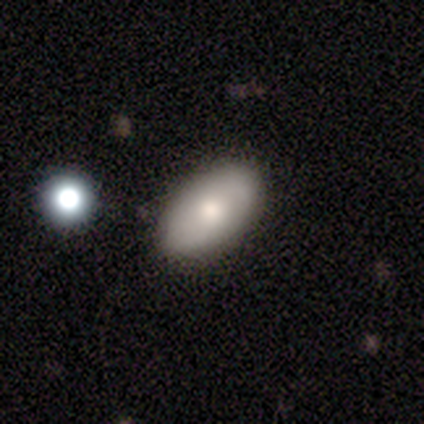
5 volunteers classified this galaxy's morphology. smooth 80%, featured or disk 20%, star or artifact 0%. Down the decision tree: how rounded — in between (100%); merging — none (100%).